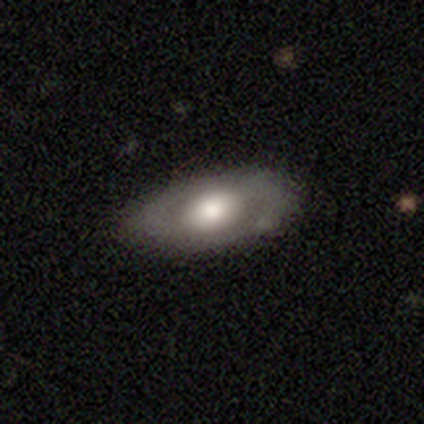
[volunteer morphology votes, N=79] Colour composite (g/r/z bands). It shows a smooth galaxy with no disk features (48%, tied with featured or disk) that is in between round and cigar-shaped (84%). Merging: none (47%).